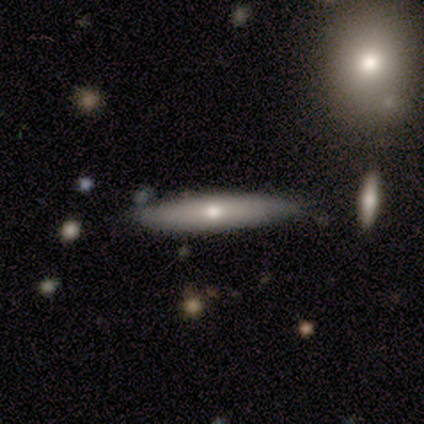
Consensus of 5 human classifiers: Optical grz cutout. It shows a smooth galaxy with no disk features (100%) that is cigar-shaped (100%). Merging: none (100%).